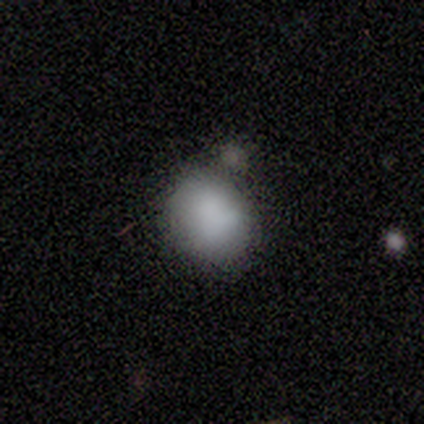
Smooth or featured: smooth — 92% (featured or disk — 8%)
How rounded: round — 50% (tied with in between — 50%)
Merging: none — 62% (minor disturbance — 23%)